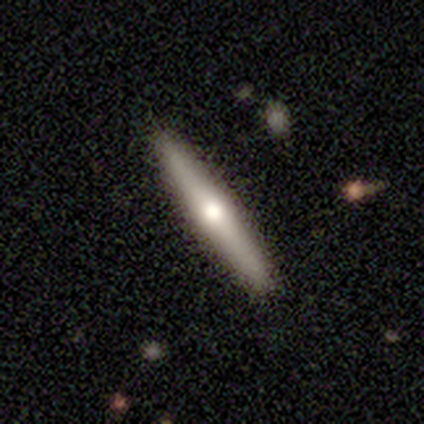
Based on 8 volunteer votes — smooth-or-featured: featured or disk: 62% | smooth: 38% | star or artifact: 0%
  disk-edge-on: yes: 100% | no: 0%
    edge-on-bulge: rounded: 100% | boxy: 0% | none: 0%
  merging: none: 88% | minor disturbance: 12% | major disturbance: 0% | merger: 0%